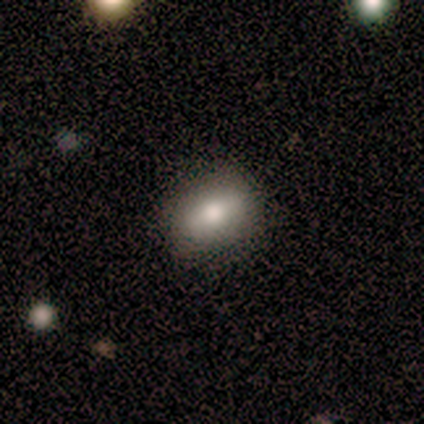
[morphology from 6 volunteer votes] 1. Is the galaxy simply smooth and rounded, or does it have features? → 83% smooth, 17% featured or disk, 0% star or artifact.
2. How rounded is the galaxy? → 100% in between, 0% round, 0% cigar-shaped.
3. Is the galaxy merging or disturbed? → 83% none, 17% minor disturbance, 0% major disturbance, 0% merger.